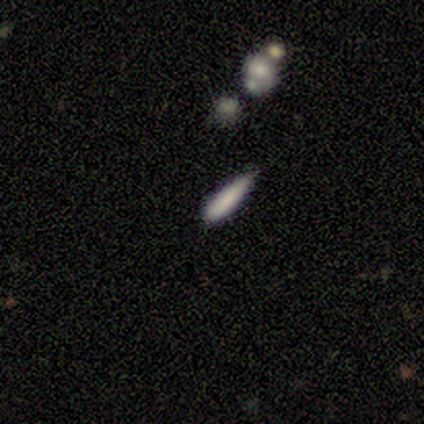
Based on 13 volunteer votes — smooth-or-featured: smooth: 69% | featured or disk: 15% | star or artifact: 15%
  how-rounded: cigar-shaped: 89% | in between: 11% | round: 0%
  merging: none: 73% | minor disturbance: 27% | major disturbance: 0% | merger: 0%